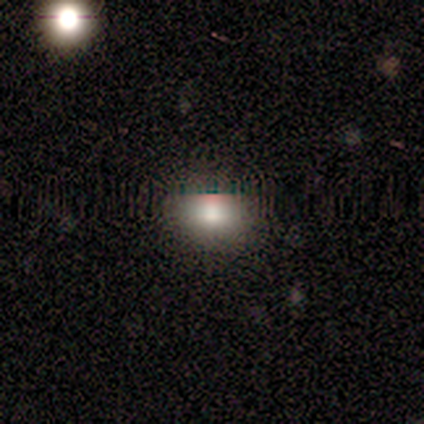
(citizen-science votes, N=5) Smooth or featured: smooth — 40% (tied with featured or disk — 40%)
How rounded: in between — 100%
Merging: none — 100%